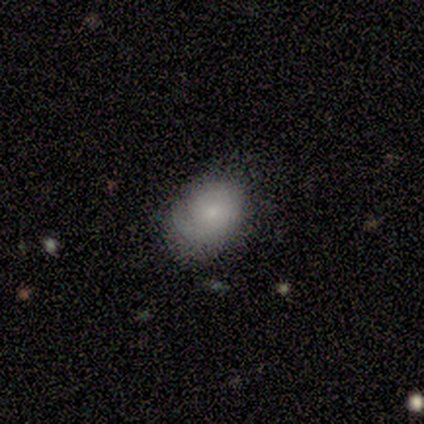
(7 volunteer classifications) Q: Smooth or featured?
A: smooth (71%); runner-up: featured or disk (14%)
Q: How rounded?
A: in between (60%); runner-up: round (40%)
Q: Merging?
A: none (67%); runner-up: minor disturbance (17%)